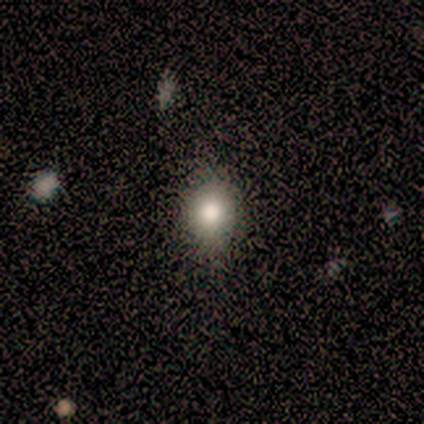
smooth-or-featured: smooth: 60% | star or artifact: 40% | featured or disk: 0%
  how-rounded: round: 67% | in between: 33% | cigar-shaped: 0%
  merging: none: 100% | minor disturbance: 0% | major disturbance: 0% | merger: 0%